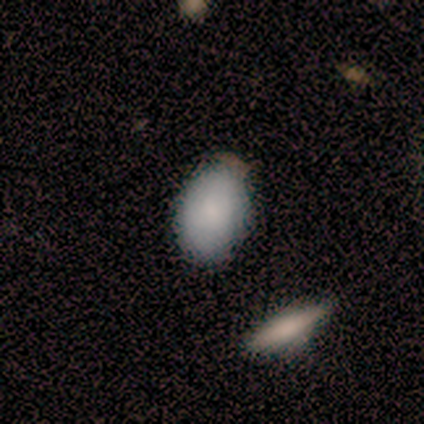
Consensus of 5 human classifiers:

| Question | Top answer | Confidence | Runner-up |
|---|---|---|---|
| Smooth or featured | smooth | 100% | — |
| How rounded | in between | 100% | — |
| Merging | none | 80% | merger (20%) |